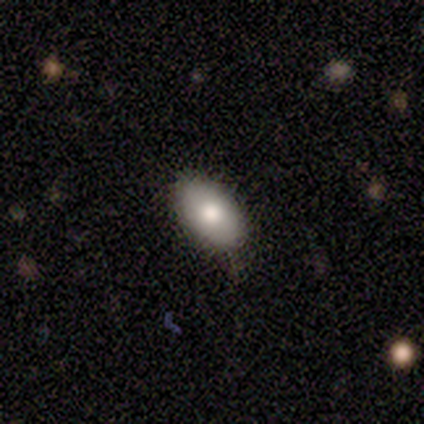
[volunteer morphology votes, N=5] smooth_or_featured: smooth (p=0.80) [alt: featured or disk p=0.20]
how_rounded: in between (p=0.75) [alt: round p=0.25]
merging: none (p=0.60) [alt: minor disturbance p=0.40]